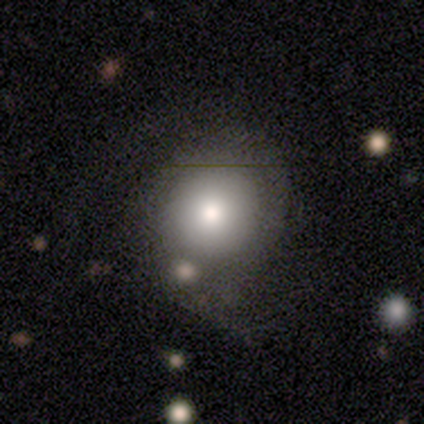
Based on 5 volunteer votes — Volunteers were most divided on "how rounded" (2-way tie): round: 50%, in between: 50%, cigar-shaped: 0%. More confident: smooth or featured — smooth (80%); merging — none (60%).